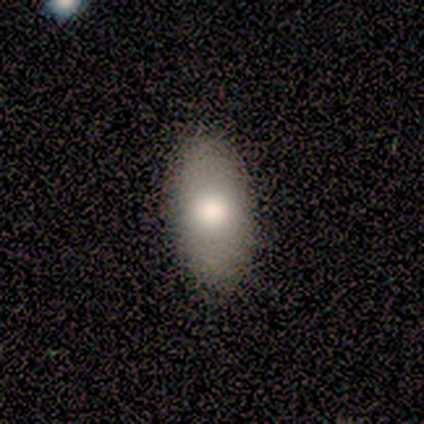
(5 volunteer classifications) Smooth or featured?
  - smooth: 80% *
  - featured or disk: 20%
  - star or artifact: 0%
How rounded?
  - in between: 100% *
  - round: 0%
  - cigar-shaped: 0%
Merging?
  - none: 100% *
  - minor disturbance: 0%
  - major disturbance: 0%
  - merger: 0%